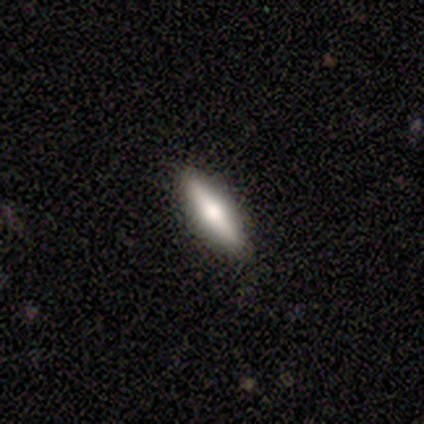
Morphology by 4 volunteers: This is possibly a smooth galaxy (50%, tied with featured or disk). How rounded: possibly in between (50%, tied with cigar-shaped). Merging: likely none (75%).